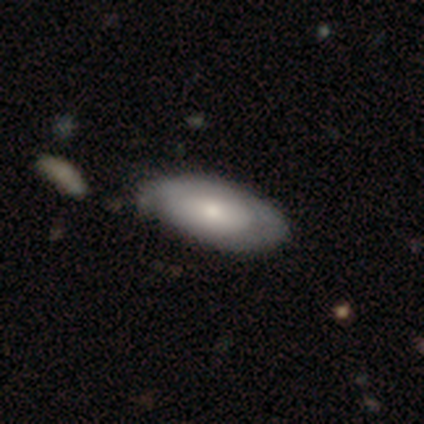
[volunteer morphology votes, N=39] smooth_or_featured: smooth (p=0.51) [alt: featured or disk p=0.49]
how_rounded: in between (p=1.00)
merging: none (p=0.38) [alt: minor disturbance p=0.26]